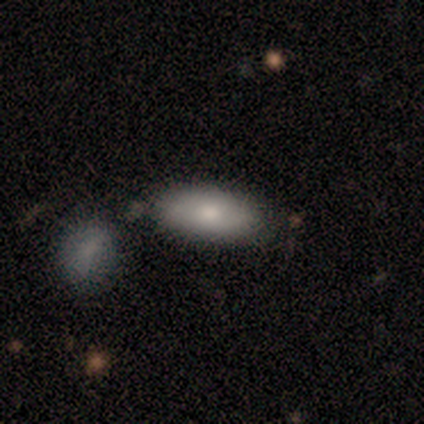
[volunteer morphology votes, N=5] A smooth galaxy with no disk features (100%) that is in between round and cigar-shaped (60%). Merging: none (80%).